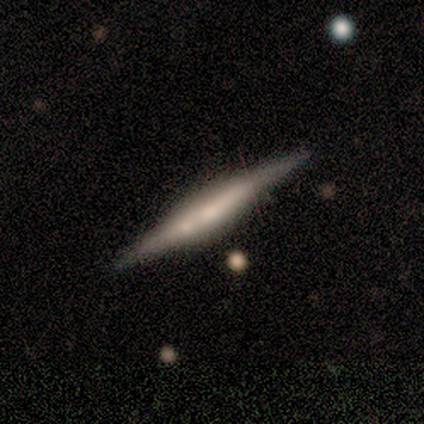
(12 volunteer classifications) Smooth or featured?
  - featured or disk: 67% *
  - smooth: 25%
  - star or artifact: 8%
Edge-on disk?
  - yes: 100% *
  - no: 0%
Edge-on bulge?
  - boxy: 38% * (tied)
  - rounded: 38% * (tied)
  - none: 25%
Merging?
  - none: 91% *
  - minor disturbance: 9%
  - major disturbance: 0%
  - merger: 0%